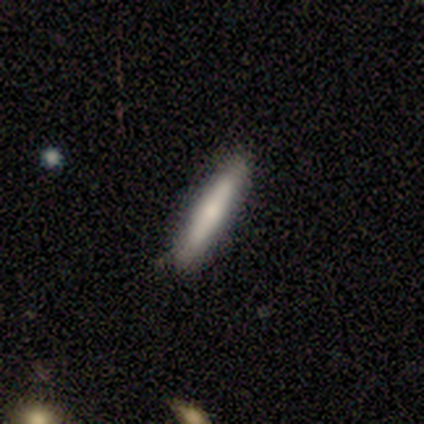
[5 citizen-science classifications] A featured or disk galaxy (60%) viewed edge-on (100%) with a rounded central bulge (67%). Merging: none (100%).